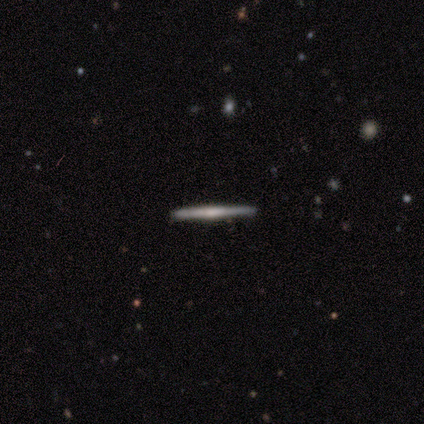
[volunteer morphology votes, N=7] A featured or disk galaxy (71%) viewed edge-on (100%) with no central bulge (40%, tied with rounded).

Vote fractions:
- Smooth or featured? featured or disk: 71% / smooth: 29% / star or artifact: 0%
- Edge-on disk? yes: 100% / no: 0%
- Edge-on bulge? none: 40% (tied) / rounded: 40% (tied) / boxy: 20%
- Merging? none: 71% / minor disturbance: 29% / major disturbance: 0% / merger: 0%